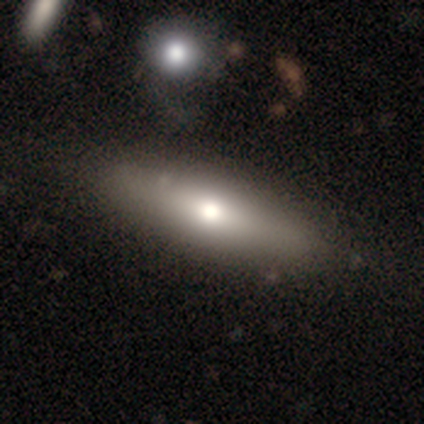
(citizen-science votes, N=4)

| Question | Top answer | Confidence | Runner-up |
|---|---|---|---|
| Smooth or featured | featured or disk | 75% | star or artifact (25%) |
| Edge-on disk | no | 67% | yes (33%) |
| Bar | no | 100% | — |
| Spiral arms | no | 100% | — |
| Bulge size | moderate | 50% | tied: small (50%) |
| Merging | none | 67% | minor disturbance (33%) |